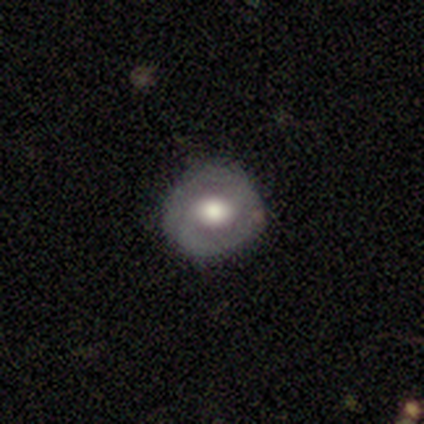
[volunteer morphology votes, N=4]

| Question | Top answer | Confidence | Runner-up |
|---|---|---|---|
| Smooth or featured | featured or disk | 75% | smooth (25%) |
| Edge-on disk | no | 100% | — |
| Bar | no | 67% | weak (33%) |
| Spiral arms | no | 67% | yes (33%) |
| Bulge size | large | 67% | moderate (33%) |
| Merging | none | 100% | — |